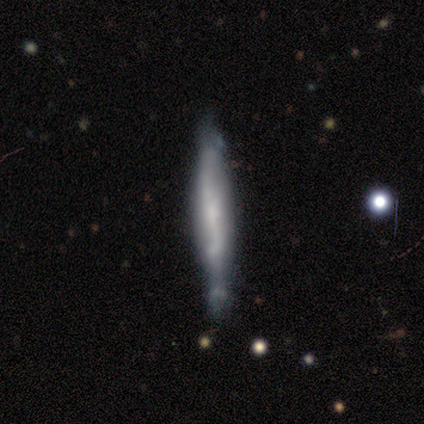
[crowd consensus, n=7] Smooth or featured? featured or disk (71%)
Edge-on disk? yes (100%)
Edge-on bulge? none (60%)
Merging? none (43%, tied with minor disturbance)